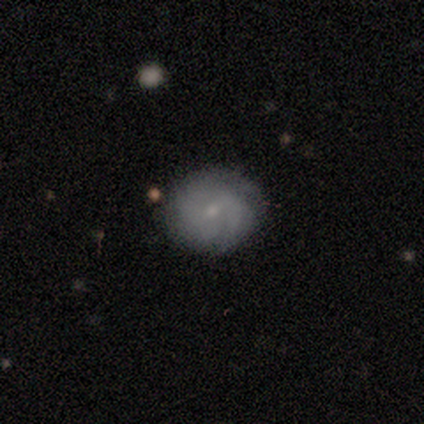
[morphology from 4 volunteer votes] type=featured or disk (75%); edge-on=no (100%); bar=no (67%); spiral arms=yes (67%); winding=tight (50%, tied with medium); arm count=4 (50%, tied with can't tell); bulge=small (100%); merging=none (75%).